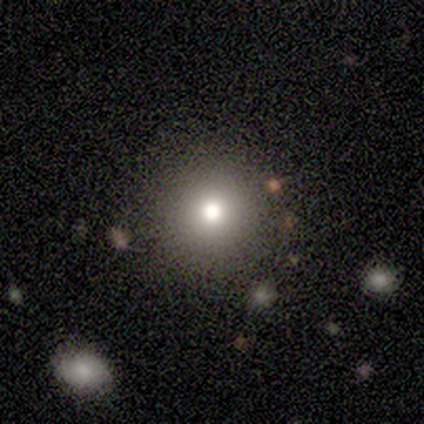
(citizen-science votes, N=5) smooth_or_featured: star or artifact (p=0.60) [alt: smooth p=0.40]